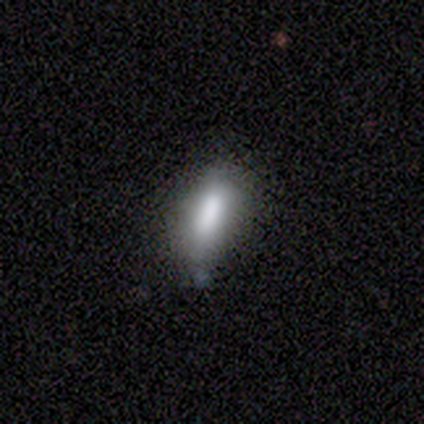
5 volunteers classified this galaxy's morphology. type=smooth (100%); roundness=in between (60%); merging=minor disturbance (60%).